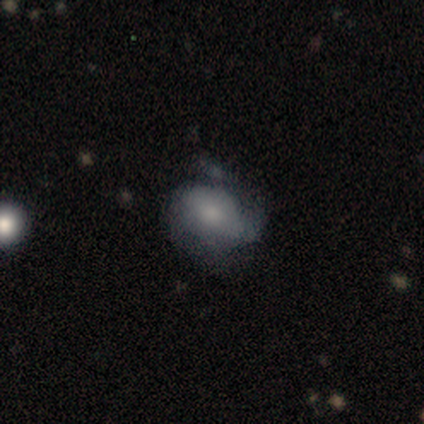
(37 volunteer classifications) Smooth or featured? smooth (51%)
How rounded? in between (84%)
Merging? minor disturbance (40%)